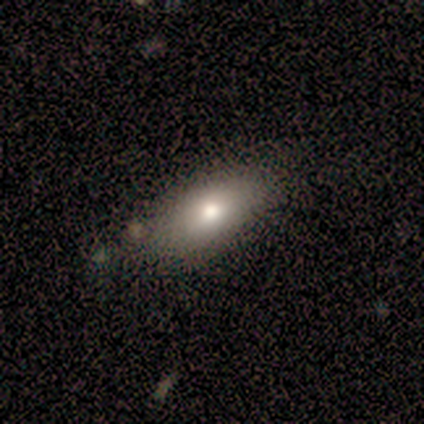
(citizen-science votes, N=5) A smooth galaxy with no disk features (100%) that is in between round and cigar-shaped (80%). Merging: none (100%).